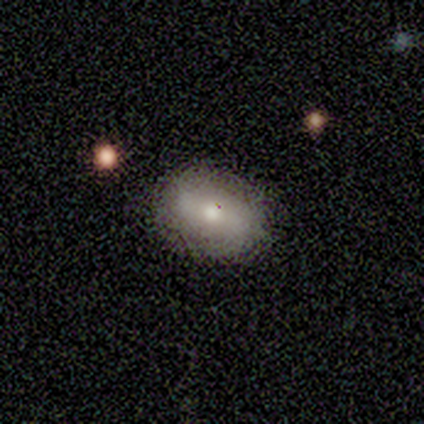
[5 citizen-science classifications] Smooth or featured: smooth — 60% (featured or disk — 20%)
How rounded: in between — 100%
Merging: none — 75% (minor disturbance — 25%)